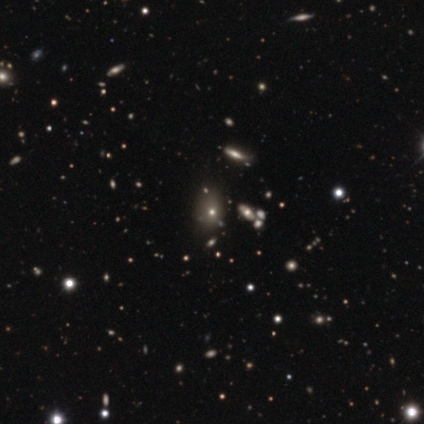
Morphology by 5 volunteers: Smooth or featured? 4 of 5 (80%) said smooth. How rounded? 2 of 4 (50%, tied with in between) said round. Merging? 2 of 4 (50%) said none.